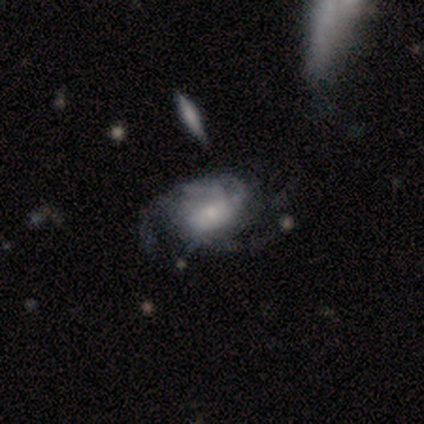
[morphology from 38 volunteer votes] A featured or disk galaxy (84%) with no bar (78%), medium (64%) spiral arms (88%) and a small central bulge (53%).

Vote fractions:
- Smooth or featured? featured or disk: 84% / smooth: 16% / star or artifact: 0%
- Edge-on disk? no: 100% / yes: 0%
- Bar? no: 78% / weak: 19% / strong: 3%
- Spiral arms? yes: 88% / no: 12%
- Spiral winding? medium: 64% / tight: 21% / loose: 14%
- Spiral arm count? can't tell: 57% / 3: 21% / 2: 18% / more than 4: 4% / 1: 0% / 4: 0%
- Bulge size? small: 53% / moderate: 22% / none: 16% / large: 9% / dominant: 0%
- Merging? none: 29% / major disturbance: 13% / minor disturbance: 11% / merger: 8%